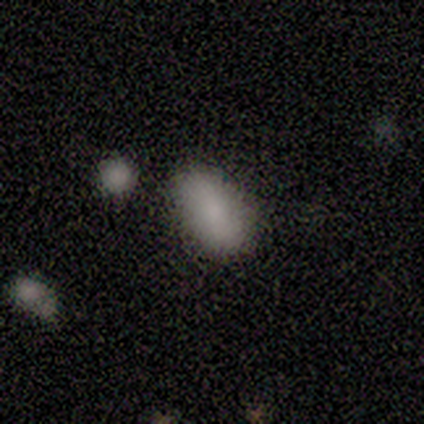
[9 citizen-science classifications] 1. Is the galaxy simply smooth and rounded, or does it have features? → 89% smooth, 11% featured or disk, 0% star or artifact.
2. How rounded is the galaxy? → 100% in between, 0% round, 0% cigar-shaped.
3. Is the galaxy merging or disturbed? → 89% none, 11% major disturbance, 0% minor disturbance, 0% merger.